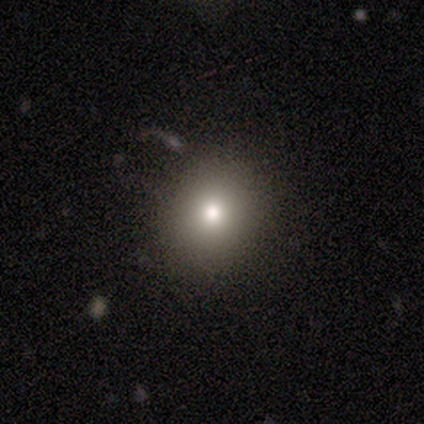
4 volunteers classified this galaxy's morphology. smooth 75%, featured or disk 25%, star or artifact 0%. Down the decision tree: how rounded — round (100%); merging — none (100%).